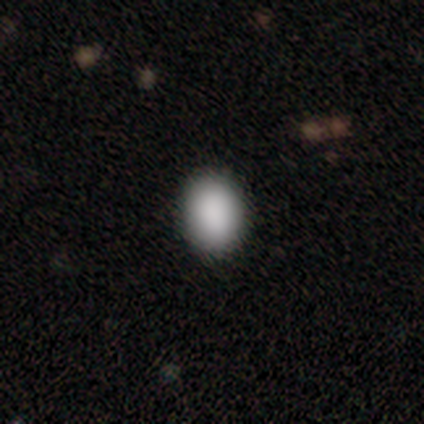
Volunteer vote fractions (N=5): Smooth or featured? 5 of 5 (100%) said smooth. How rounded? 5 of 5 (100%) said in between. Merging? 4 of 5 (80%) said none.